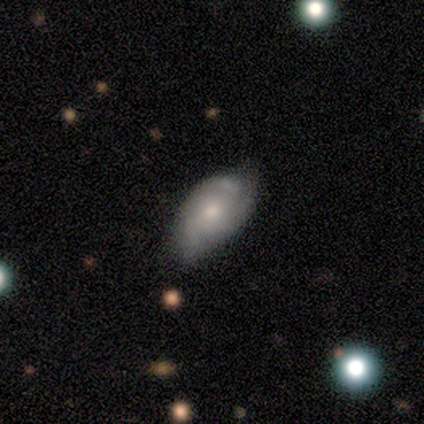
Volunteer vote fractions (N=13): Overall: featured or disk (62%; smooth 38%). Edge-on disk: no (100%). Bar: no (100%). Spiral arms: yes (75%). Spiral arm count: can't tell (67%). Spiral winding: tight (50%; loose 33%). Bulge size: moderate (50%, tied with small). Merging: none (46%, tied with minor disturbance).